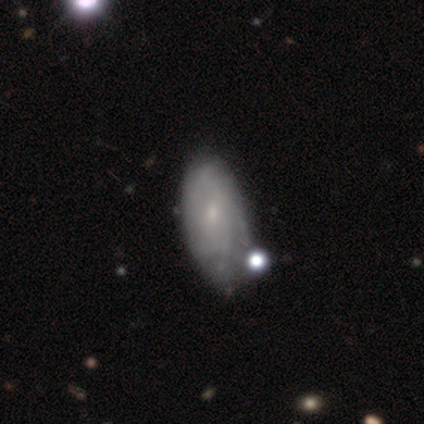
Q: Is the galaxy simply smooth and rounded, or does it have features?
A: featured or disk — 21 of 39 (54%).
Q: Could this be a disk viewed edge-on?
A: no — 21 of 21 (100%).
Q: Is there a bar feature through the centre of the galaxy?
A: no — 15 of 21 (71%).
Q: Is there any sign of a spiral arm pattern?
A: yes — 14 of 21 (67%).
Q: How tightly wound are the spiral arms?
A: tight — 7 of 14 (50%).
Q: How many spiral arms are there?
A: can't tell — 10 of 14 (71%).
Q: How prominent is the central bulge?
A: small — 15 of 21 (71%).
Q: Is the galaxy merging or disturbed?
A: minor disturbance — 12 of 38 (32%).